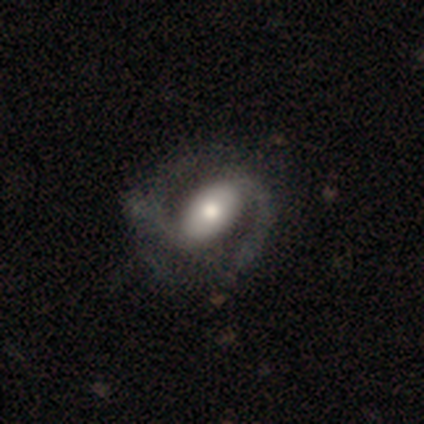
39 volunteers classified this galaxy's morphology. smooth-or-featured: featured or disk: 82% | smooth: 15% | star or artifact: 3%
  disk-edge-on: no: 100% | yes: 0%
    bar: strong: 50% | no: 28% | weak: 22%
    has-spiral-arms: yes: 94% | no: 6%
      spiral-winding: medium: 53% | loose: 40% | tight: 7%
      spiral-arm-count: 2: 97% | 3: 3% | 1: 0% | 4: 0% | more than 4: 0% | can't tell: 0%
    bulge-size: moderate: 66% | large: 31% | dominant: 3% | small: 0% | none: 0%
  merging: none: 50% | minor disturbance: 13% | major disturbance: 8% | merger: 0%